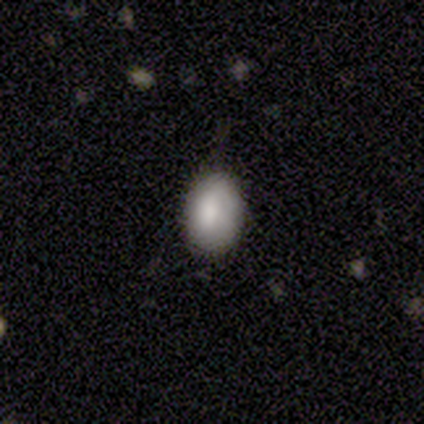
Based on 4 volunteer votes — Smooth or featured? smooth (75%)
How rounded? in between (100%)
Merging? none (67%)